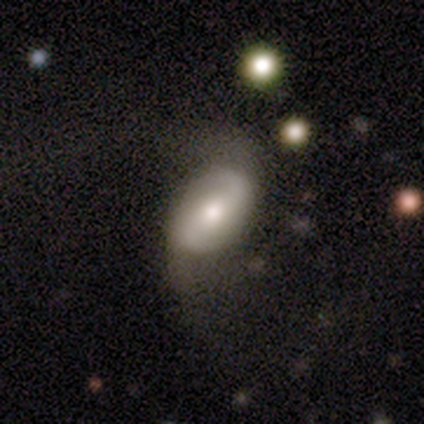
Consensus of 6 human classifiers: This appears to be a featured or disk galaxy (67%) with no bar (50%), 2 (100%) medium (50%, tied with loose) spiral arms (100%) and a moderate central bulge (100%). Merging: none (50%, tied with major disturbance).